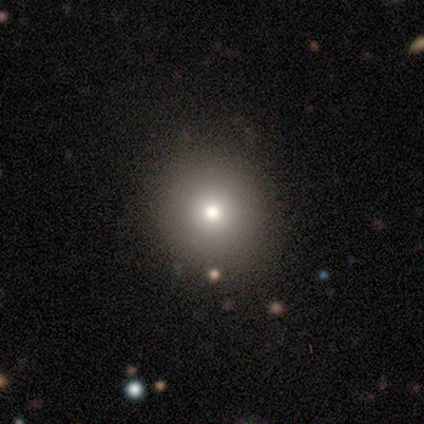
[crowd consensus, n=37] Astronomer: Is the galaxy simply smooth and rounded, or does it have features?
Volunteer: smooth — 73%.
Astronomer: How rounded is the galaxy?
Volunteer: round — 100%.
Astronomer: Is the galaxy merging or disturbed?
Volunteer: none — 94%.